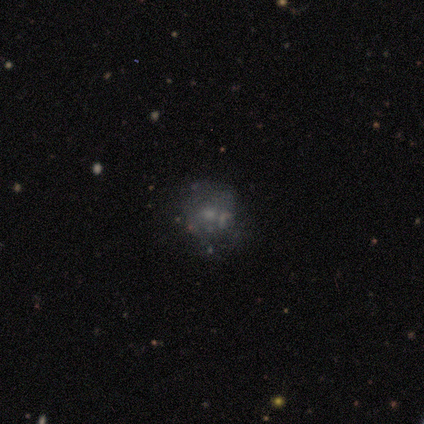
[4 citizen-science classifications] featured or disk 75%, smooth 25%, star or artifact 0%. Down the decision tree: edge-on disk — no (100%); bar — no (100%); spiral arms — no (100%); bulge size — moderate (33%, tied with small and none); merging — none (50%).